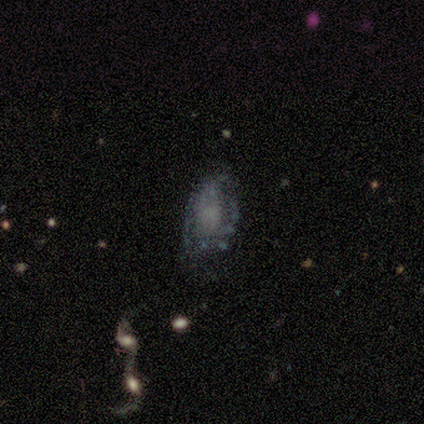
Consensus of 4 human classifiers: smooth_or_featured: featured or disk (p=0.75) [alt: smooth p=0.25]
disk_edge_on: no (p=0.67) [alt: yes p=0.33]
bar: no (p=1.00)
has_spiral_arms: yes (p=0.50) [tied with: no p=0.50]
spiral_winding: tight (p=1.00)
spiral_arm_count: can't tell (p=1.00)
bulge_size: none (p=1.00)
merging: none (p=0.75) [alt: major disturbance p=0.25]